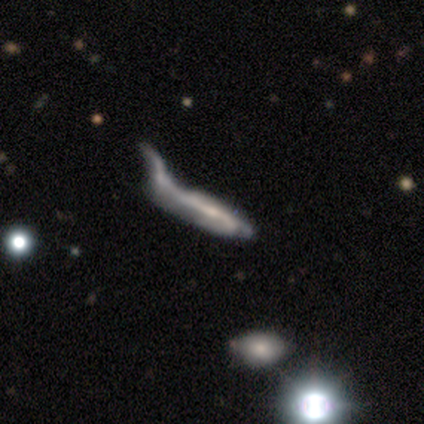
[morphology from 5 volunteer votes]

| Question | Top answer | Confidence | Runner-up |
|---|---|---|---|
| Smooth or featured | featured or disk | 60% | smooth (40%) |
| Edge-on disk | no | 67% | yes (33%) |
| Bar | no | 100% | — |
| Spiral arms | yes | 50% | tied: no (50%) |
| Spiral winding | loose | 100% | — |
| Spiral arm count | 2 | 100% | — |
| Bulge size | small | 50% | tied: none (50%) |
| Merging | merger | 60% | none (20%) |